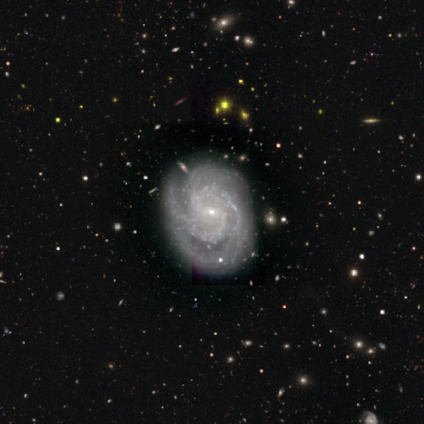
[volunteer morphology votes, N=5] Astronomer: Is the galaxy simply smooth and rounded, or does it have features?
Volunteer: featured or disk — 100%.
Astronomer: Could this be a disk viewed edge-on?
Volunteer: no — 100%.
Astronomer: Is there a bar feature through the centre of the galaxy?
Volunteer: weak — 40%, tied with no at 40%.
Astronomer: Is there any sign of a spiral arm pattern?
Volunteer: yes — 100%.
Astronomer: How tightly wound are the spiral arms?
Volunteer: medium — 60% (runner-up: tight, 40%).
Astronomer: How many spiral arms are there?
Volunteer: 3 — 60% (runner-up: 2, 40%).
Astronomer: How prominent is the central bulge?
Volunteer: small — 80%.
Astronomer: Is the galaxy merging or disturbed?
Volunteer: none — 100%.